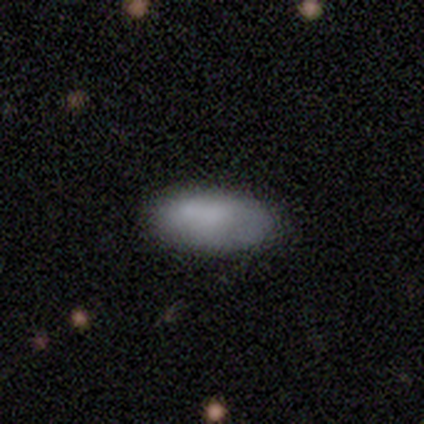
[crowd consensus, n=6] smooth_or_featured: smooth (p=0.67) [alt: featured or disk p=0.33]
how_rounded: in between (p=1.00)
merging: none (p=0.83) [alt: minor disturbance p=0.17]